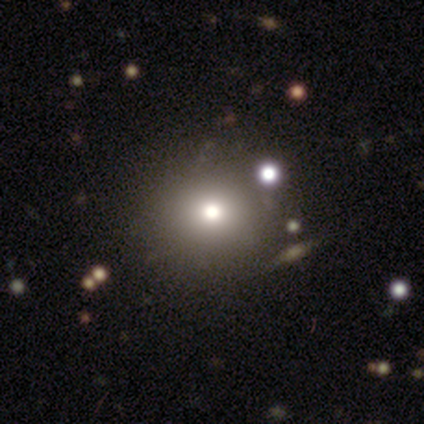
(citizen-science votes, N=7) A smooth galaxy with no disk features (86%) that is round (100%). Merging: none (100%).